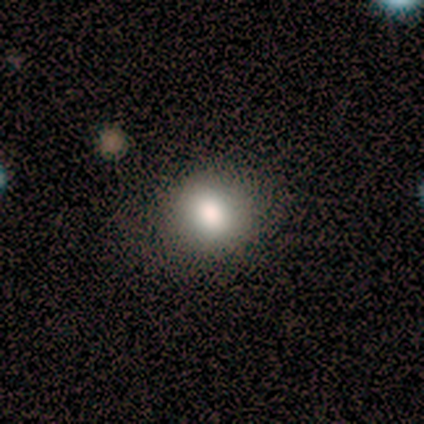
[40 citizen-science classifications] Smooth or featured?
  - smooth: 82% *
  - featured or disk: 12%
  - star or artifact: 5%
How rounded?
  - round: 76% *
  - in between: 24%
  - cigar-shaped: 0%
Merging?
  - none: 92% *
  - major disturbance: 5%
  - minor disturbance: 3%
  - merger: 0%